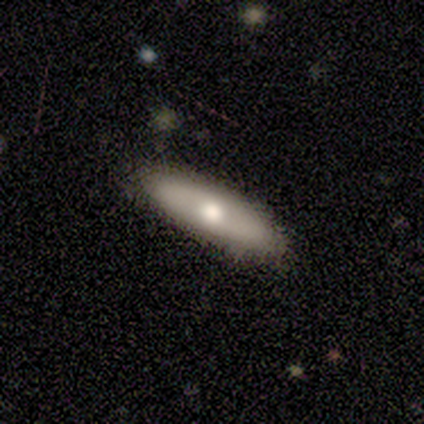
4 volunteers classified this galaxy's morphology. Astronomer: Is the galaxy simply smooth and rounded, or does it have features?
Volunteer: smooth — 75%.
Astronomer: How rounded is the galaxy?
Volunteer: in between — 67%.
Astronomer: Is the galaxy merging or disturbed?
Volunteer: none — 100%.